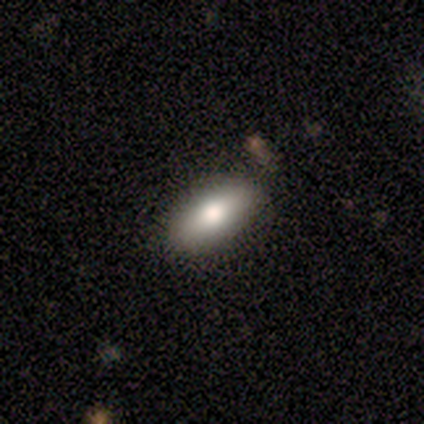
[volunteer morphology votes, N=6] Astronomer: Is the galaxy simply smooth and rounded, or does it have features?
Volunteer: smooth — 83%.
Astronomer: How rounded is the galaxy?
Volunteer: in between — 80%.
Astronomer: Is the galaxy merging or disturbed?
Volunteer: none — 100%.